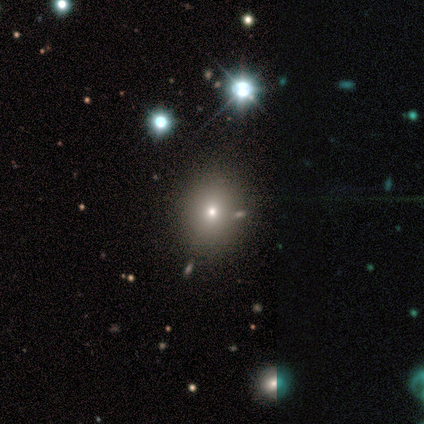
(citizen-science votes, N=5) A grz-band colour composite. It shows a smooth galaxy with no disk features (40%, tied with featured or disk) that is round (100%). Merging: none (75%).